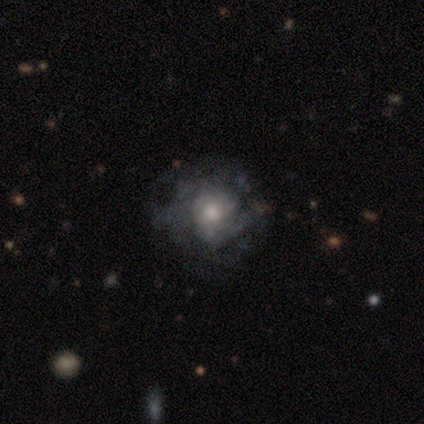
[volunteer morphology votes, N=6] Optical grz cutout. It shows a featured or disk galaxy (67%) with no bar (100%), tight (75%) spiral arms (100%) and a moderate central bulge (75%). Merging: none (67%).